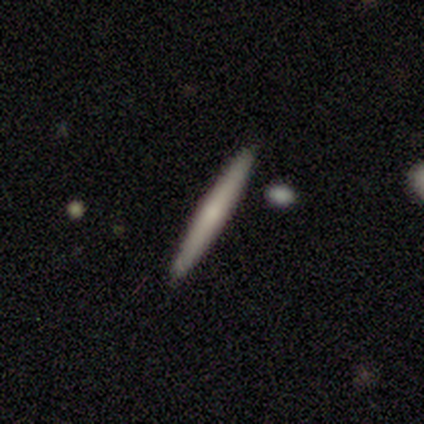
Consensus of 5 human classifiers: This is marginally a smooth galaxy (40%, tied with featured or disk). How rounded: clearly cigar-shaped (100%). Merging: clearly none (100%).